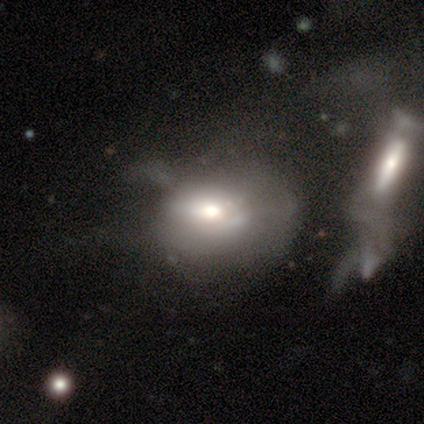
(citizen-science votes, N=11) This appears to be a featured or disk galaxy (55%) with no bar (100%), no spiral arms (83%) and a moderate central bulge (50%). Merging: major disturbance (45%).